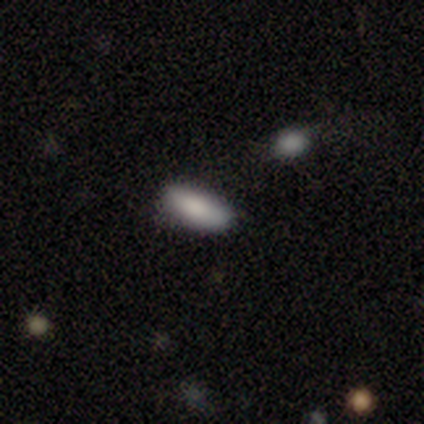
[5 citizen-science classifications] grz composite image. It shows a smooth galaxy with no disk features (60%) that is cigar-shaped (100%). Merging: minor disturbance (67%).